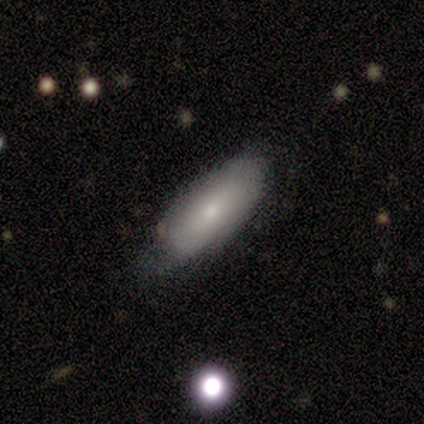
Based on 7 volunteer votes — Overall: smooth (57%; featured or disk 43%). How rounded: in between (100%). Merging: minor disturbance (57%; none 43%).